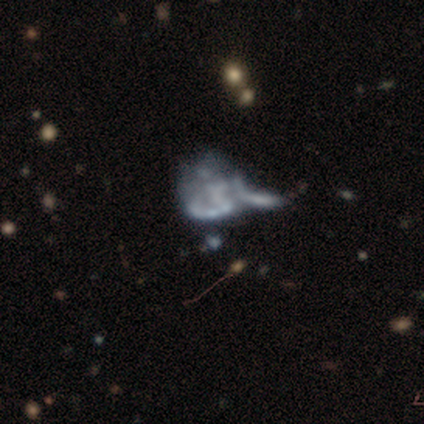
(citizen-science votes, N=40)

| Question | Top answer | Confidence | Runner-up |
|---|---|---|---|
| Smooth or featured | featured or disk | 75% | star or artifact (18%) |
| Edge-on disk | no | 97% | yes (3%) |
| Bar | no | 86% | weak (10%) |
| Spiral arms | no | 79% | yes (21%) |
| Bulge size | none | 90% | small (7%) |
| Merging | major disturbance | 42% | none (27%) |